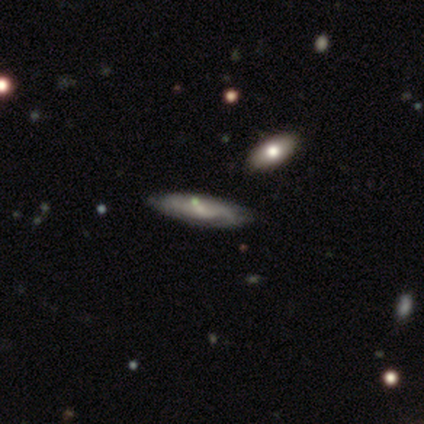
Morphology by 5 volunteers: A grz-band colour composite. It shows a featured or disk galaxy (80%) with no bar (100%), tight (50%, tied with medium) spiral arms (67%) and a small central bulge (67%). Merging: none (75%).